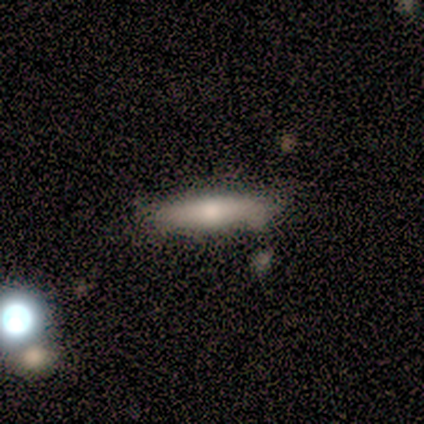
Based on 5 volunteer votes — This appears to be a smooth galaxy with no disk features (100%) that is cigar-shaped (60%). Merging: none (80%).